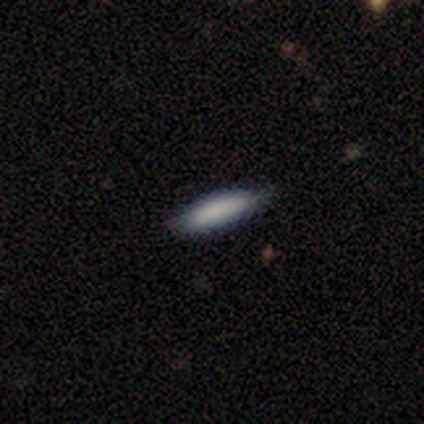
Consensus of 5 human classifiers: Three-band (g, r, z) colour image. It shows a smooth galaxy with no disk features (100%) that is cigar-shaped (80%). Merging: none (60%).